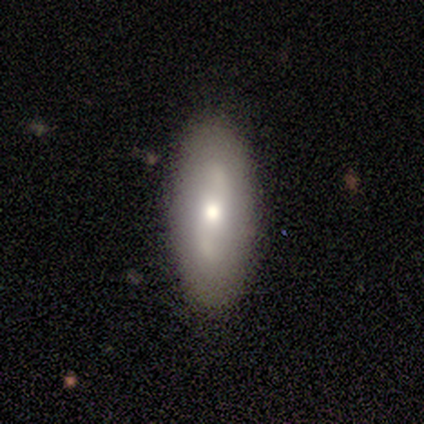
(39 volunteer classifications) Morphology: type=featured or disk (59%); edge-on=no (87%); bar=no (50%); spiral arms=yes (65%); winding=loose (85%); arm count=2 (92%); bulge=moderate (70%); merging=none (95%).